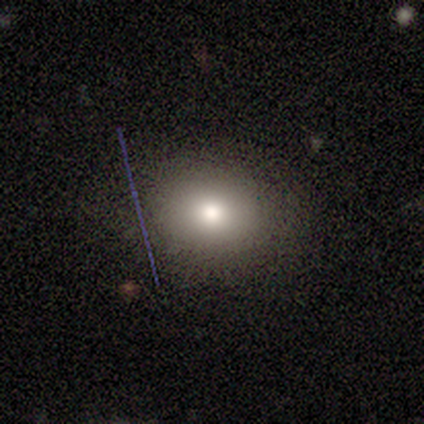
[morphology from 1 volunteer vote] Overall: smooth (100%). How rounded: round (100%). Merging: none (100%).